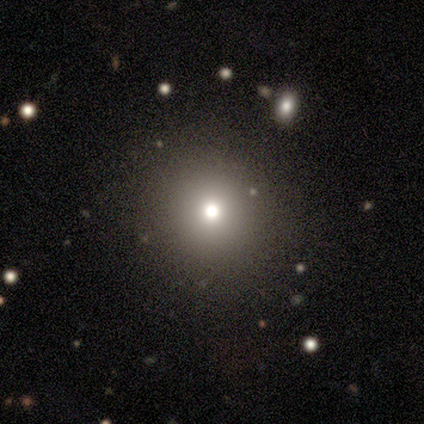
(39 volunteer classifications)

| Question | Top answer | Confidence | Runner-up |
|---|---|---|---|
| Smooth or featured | smooth | 74% | star or artifact (18%) |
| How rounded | round | 97% | in between (3%) |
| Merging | none | 72% | minor disturbance (16%) |